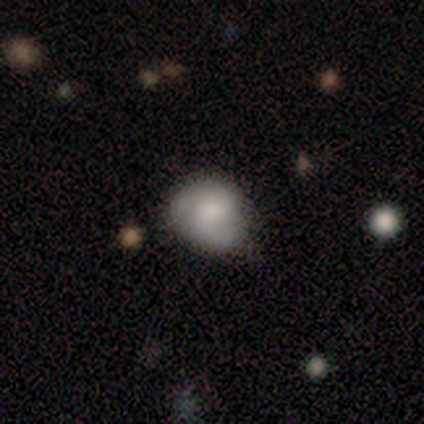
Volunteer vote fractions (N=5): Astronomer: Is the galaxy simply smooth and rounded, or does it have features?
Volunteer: smooth — 80%.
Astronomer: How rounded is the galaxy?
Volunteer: round — 75%.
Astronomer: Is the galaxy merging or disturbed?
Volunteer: none — 80%.